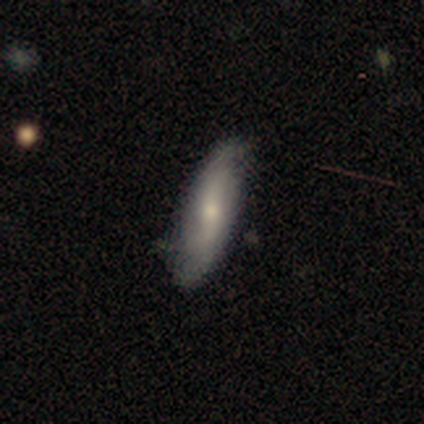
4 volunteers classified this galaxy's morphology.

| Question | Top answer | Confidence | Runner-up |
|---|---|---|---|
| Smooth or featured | featured or disk | 75% | smooth (25%) |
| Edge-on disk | no | 67% | yes (33%) |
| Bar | weak | 50% | tied: no (50%) |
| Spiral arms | yes | 50% | tied: no (50%) |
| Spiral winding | loose | 100% | — |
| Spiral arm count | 2 | 100% | — |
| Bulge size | small | 100% | — |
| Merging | none | 50% | minor disturbance (25%) |